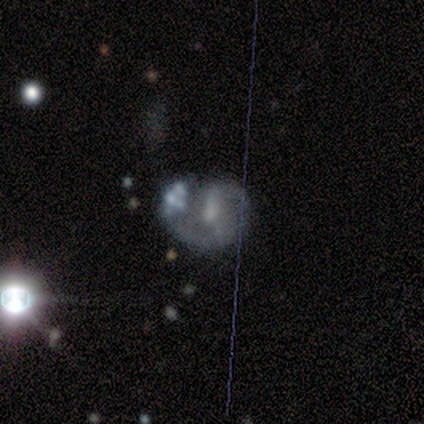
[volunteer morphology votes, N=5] Smooth or featured? 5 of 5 (100%) said featured or disk. Edge-on disk? 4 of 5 (80%) said no. Bar? 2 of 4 (50%, tied with no) said weak. Spiral arms? 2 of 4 (50%, tied with no) said yes. Spiral winding? 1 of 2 (50%, tied with medium) said tight. Spiral arm count? 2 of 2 (100%) said 2. Bulge size? 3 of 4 (75%) said small. Merging? 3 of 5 (60%) said none.